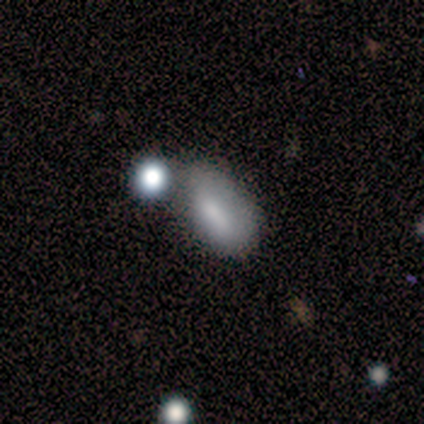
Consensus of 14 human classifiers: Smooth or featured? smooth (79%)
How rounded? in between (91%)
Merging? none (54%)